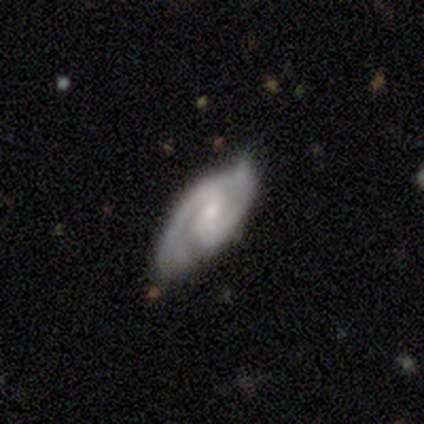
A featured or disk galaxy (100%) with a strong bar (60%), 2 (80%) medium (60%) spiral arms (100%) and a small central bulge (80%).

Vote fractions:
- Smooth or featured? featured or disk: 100% / smooth: 0% / star or artifact: 0%
- Edge-on disk? no: 100% / yes: 0%
- Bar? strong: 60% / weak: 40% / no: 0%
- Spiral arms? yes: 100% / no: 0%
- Spiral winding? medium: 60% / loose: 40% / tight: 0%
- Spiral arm count? 2: 80% / 1: 20% / 3: 0% / 4: 0% / more than 4: 0% / can't tell: 0%
- Bulge size? small: 80% / moderate: 20% / dominant: 0% / large: 0% / none: 0%
- Merging? none: 80% / merger: 20% / minor disturbance: 0% / major disturbance: 0%